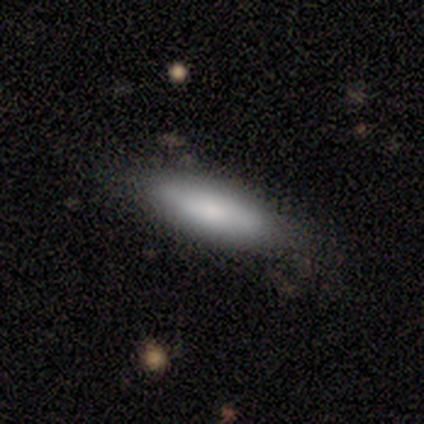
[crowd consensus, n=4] Volunteers were most divided on "how rounded": in between: 67%, cigar-shaped: 33%, round: 0%. More confident: merging — none (100%); smooth or featured — smooth (75%).